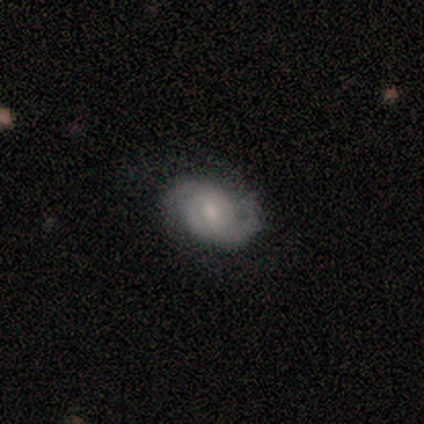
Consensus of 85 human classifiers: smooth_or_featured: featured or disk (p=0.88) [alt: smooth p=0.11]
disk_edge_on: no (p=0.96) [alt: yes p=0.04]
bar: no (p=0.47) [alt: weak p=0.44]
has_spiral_arms: yes (p=0.96) [alt: no p=0.04]
spiral_winding: medium (p=0.42) [alt: tight p=0.36]
spiral_arm_count: 2 (p=0.86) [alt: can't tell p=0.09]
bulge_size: small (p=0.49) [alt: moderate p=0.43]
merging: none (p=0.77) [alt: minor disturbance p=0.12]